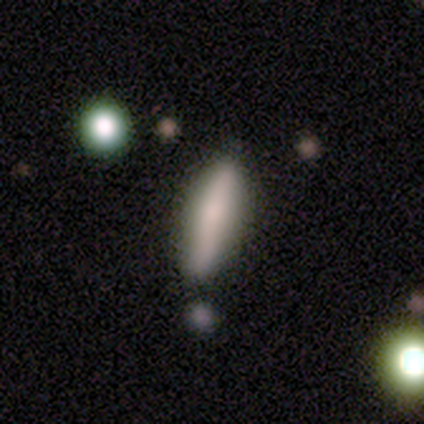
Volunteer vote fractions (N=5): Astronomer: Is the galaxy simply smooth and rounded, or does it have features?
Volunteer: smooth — 80%.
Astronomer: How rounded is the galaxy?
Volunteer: cigar-shaped — 100%.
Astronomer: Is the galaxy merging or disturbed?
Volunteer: none — 60% (runner-up: minor disturbance, 40%).